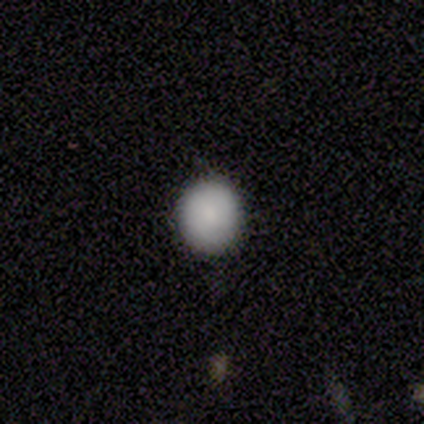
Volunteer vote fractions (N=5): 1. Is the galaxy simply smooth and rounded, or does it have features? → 80% smooth, 20% featured or disk, 0% star or artifact.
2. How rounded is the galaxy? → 75% round, 25% in between, 0% cigar-shaped.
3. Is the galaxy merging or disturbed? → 80% none, 20% minor disturbance, 0% major disturbance, 0% merger.